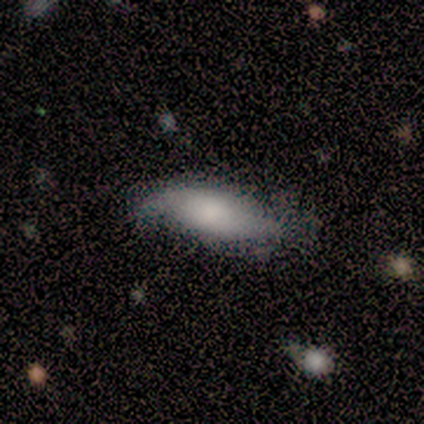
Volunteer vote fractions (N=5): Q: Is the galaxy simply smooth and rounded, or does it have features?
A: smooth — 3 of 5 (60%).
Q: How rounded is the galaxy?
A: in between — 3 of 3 (100%).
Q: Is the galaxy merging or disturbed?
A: none — 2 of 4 (50%, tied with minor disturbance).